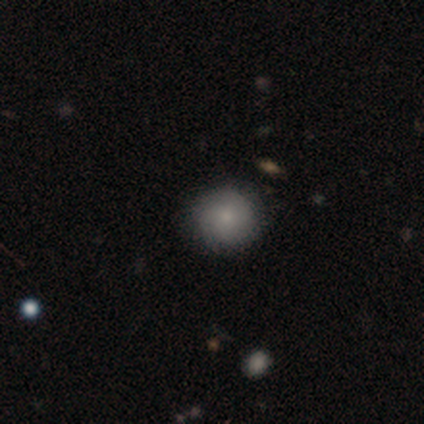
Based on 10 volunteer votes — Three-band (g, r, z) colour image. It shows a smooth galaxy with no disk features (60%) that is round (100%). Merging: none (88%).